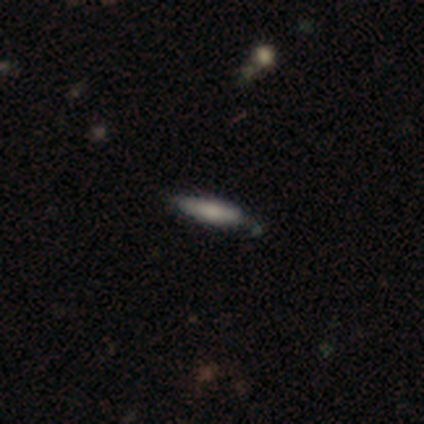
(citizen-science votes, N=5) smooth_or_featured: featured or disk (p=0.60) [alt: smooth p=0.40]
disk_edge_on: yes (p=0.67) [alt: no p=0.33]
edge_on_bulge: none (p=0.50) [tied with: rounded p=0.50]
merging: none (p=0.80) [alt: minor disturbance p=0.20]